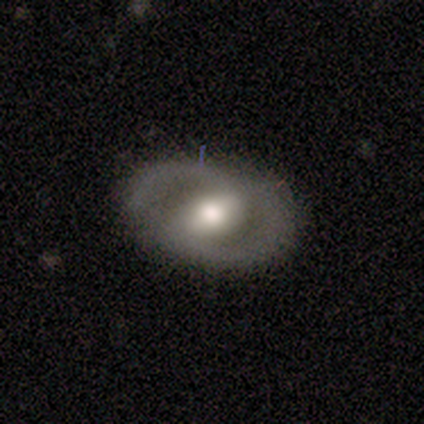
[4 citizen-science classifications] A featured or disk galaxy (75%) with a strong bar (100%), 2 (100%) medium (100%) spiral arms (50%, tied with no) and a moderate central bulge (100%).

Vote fractions:
- Smooth or featured? featured or disk: 75% / smooth: 25% / star or artifact: 0%
- Edge-on disk? no: 67% / yes: 33%
- Bar? strong: 100% / weak: 0% / no: 0%
- Spiral arms? yes: 50% (tied) / no: 50% (tied)
- Spiral winding? medium: 100% / tight: 0% / loose: 0%
- Spiral arm count? 2: 100% / 1: 0% / 3: 0% / 4: 0% / more than 4: 0% / can't tell: 0%
- Bulge size? moderate: 100% / dominant: 0% / large: 0% / small: 0% / none: 0%
- Merging? none: 50% / minor disturbance: 25% / major disturbance: 25% / merger: 0%